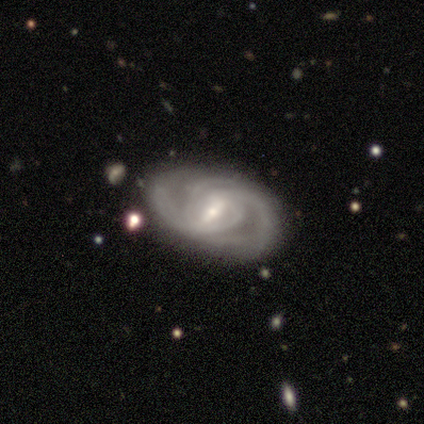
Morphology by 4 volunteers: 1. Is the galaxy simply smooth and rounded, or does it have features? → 100% featured or disk, 0% smooth, 0% star or artifact.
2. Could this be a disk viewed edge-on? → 100% no, 0% yes.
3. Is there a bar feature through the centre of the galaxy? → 75% weak, 25% strong, 0% no.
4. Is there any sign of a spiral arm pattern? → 100% yes, 0% no.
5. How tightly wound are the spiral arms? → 50% tight (tied), 50% medium (tied), 0% loose.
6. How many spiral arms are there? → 75% 2, 25% can't tell, 0% 1, 0% 3, 0% 4, 0% more than 4.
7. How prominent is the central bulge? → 75% small, 25% moderate, 0% dominant, 0% large, 0% none.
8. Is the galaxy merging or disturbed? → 100% none, 0% minor disturbance, 0% major disturbance, 0% merger.